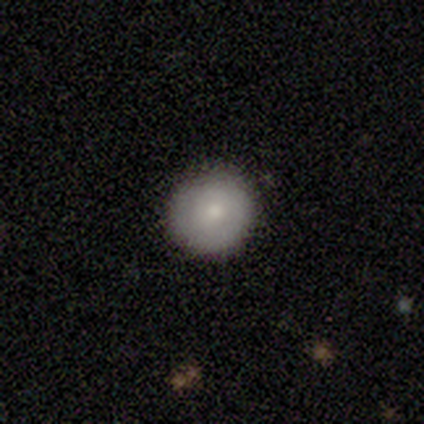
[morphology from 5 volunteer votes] A smooth galaxy with no disk features (100%) that is round (100%). Merging: none (80%).